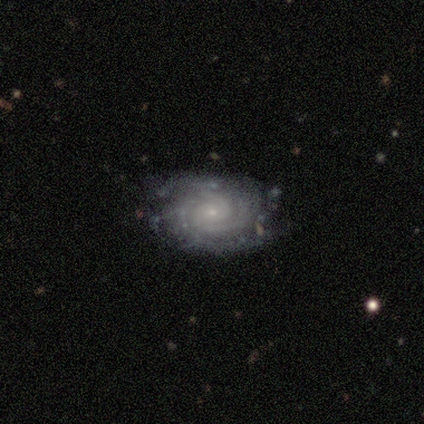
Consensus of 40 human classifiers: A featured or disk galaxy (90%) with no bar (91%), 2 (50%) tight (85%) spiral arms (100%) and a small central bulge (79%).

Vote fractions:
- Smooth or featured? featured or disk: 90% / smooth: 5% / star or artifact: 5%
- Edge-on disk? no: 94% / yes: 6%
- Bar? no: 91% / weak: 6% / strong: 3%
- Spiral arms? yes: 100% / no: 0%
- Spiral winding? tight: 85% / medium: 15% / loose: 0%
- Spiral arm count? 2: 50% / 3: 24% / can't tell: 12% / more than 4: 9% / 4: 6% / 1: 0%
- Bulge size? small: 79% / moderate: 18% / large: 3% / dominant: 0% / none: 0%
- Merging? none: 71% / minor disturbance: 24% / major disturbance: 3% / merger: 3%